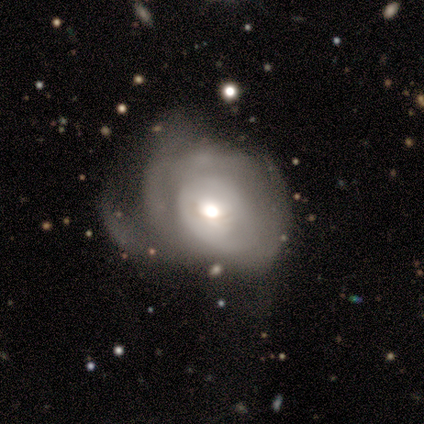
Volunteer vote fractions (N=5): Volunteers were most divided on "spiral arms" (2-way tie): yes: 50%, no: 50%; "spiral winding" (2-way tie): tight: 50%, medium: 50%, loose: 0%; "spiral arm count" (2-way tie): 4: 50%, can't tell: 50%, 1: 0%, 2: 0%, 3: 0%, more than 4: 0%; "merging" (2-way tie): none: 40%, major disturbance: 40%, minor disturbance: 20%, merger: 0%. More confident: edge-on disk — no (100%); bar — no (100%); smooth or featured — featured or disk (80%); bulge size — moderate (75%).